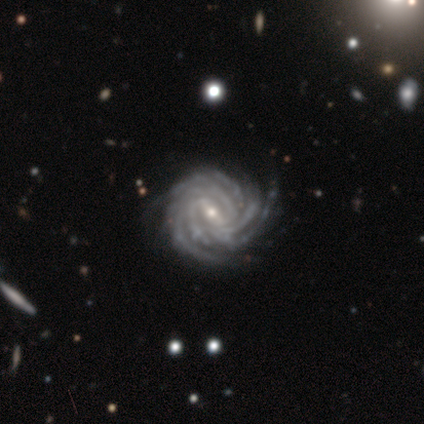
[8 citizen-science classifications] Volunteers were most divided on "bar": strong: 57%, weak: 29%, no: 14%. More confident: edge-on disk — no (100%); spiral arms — yes (100%); spiral winding — tight (100%); smooth or featured — featured or disk (88%); merging — none (75%); bulge size — small (71%); spiral arm count — more than 4 (57%).